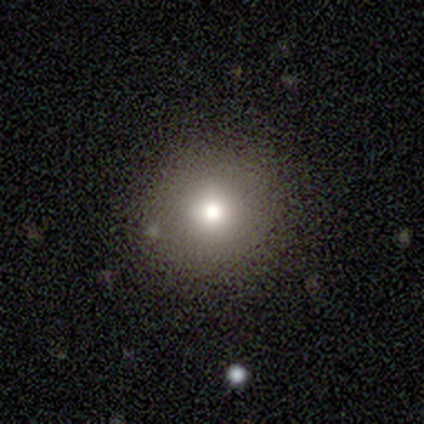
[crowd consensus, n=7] A smooth galaxy with no disk features (86%) that is round (100%). Merging: none (100%).